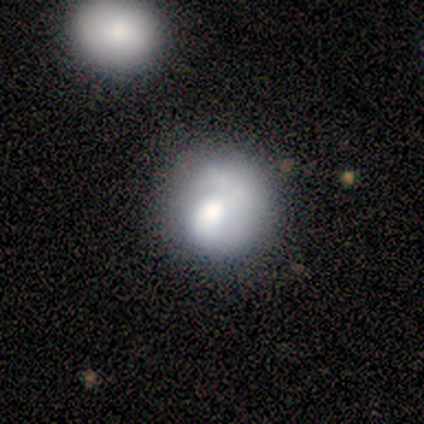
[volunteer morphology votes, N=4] smooth-or-featured: smooth: 50% (tied) | featured or disk: 50% (tied) | star or artifact: 0%
  how-rounded: round: 100% | in between: 0% | cigar-shaped: 0%
  merging: none: 100% | minor disturbance: 0% | major disturbance: 0% | merger: 0%